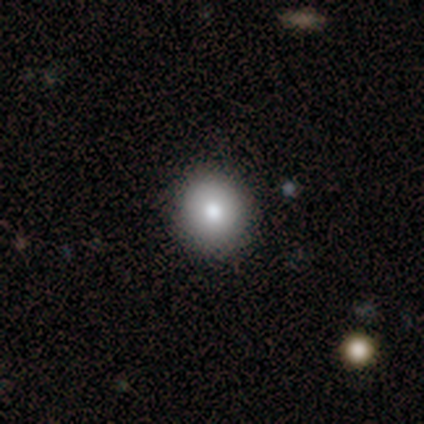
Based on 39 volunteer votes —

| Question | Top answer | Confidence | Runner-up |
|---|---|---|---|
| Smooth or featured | smooth | 87% | featured or disk (10%) |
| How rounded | round | 91% | in between (6%) |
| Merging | none | 95% | minor disturbance (5%) |